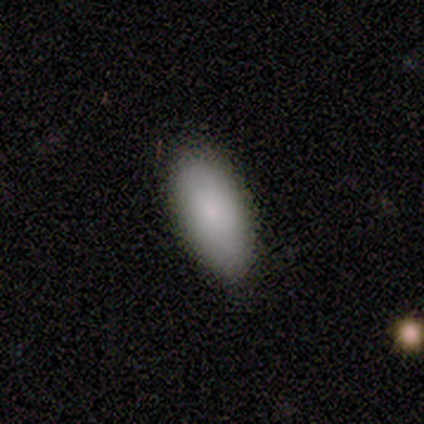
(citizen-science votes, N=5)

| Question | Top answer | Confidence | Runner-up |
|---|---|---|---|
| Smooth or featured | smooth | 100% | — |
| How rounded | in between | 80% | cigar-shaped (20%) |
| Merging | none | 60% | minor disturbance (40%) |